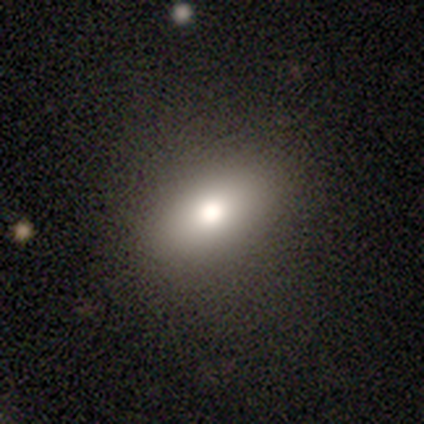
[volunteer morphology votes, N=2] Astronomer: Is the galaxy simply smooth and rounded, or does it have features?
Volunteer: star or artifact — 100%.